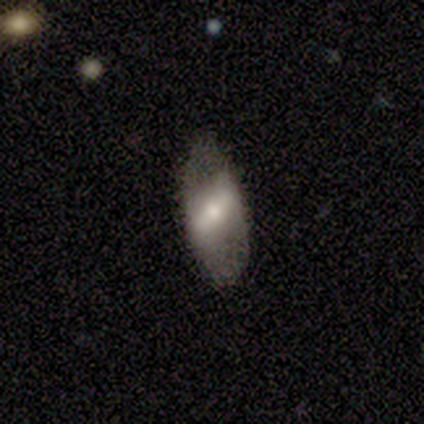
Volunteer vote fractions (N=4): smooth-or-featured: featured or disk: 100% | smooth: 0% | star or artifact: 0%
  disk-edge-on: no: 100% | yes: 0%
    bar: strong: 75% | weak: 25% | no: 0%
    has-spiral-arms: no: 75% | yes: 25%
    bulge-size: small: 100% | dominant: 0% | large: 0% | moderate: 0% | none: 0%
  merging: none: 75% | minor disturbance: 25% | major disturbance: 0% | merger: 0%